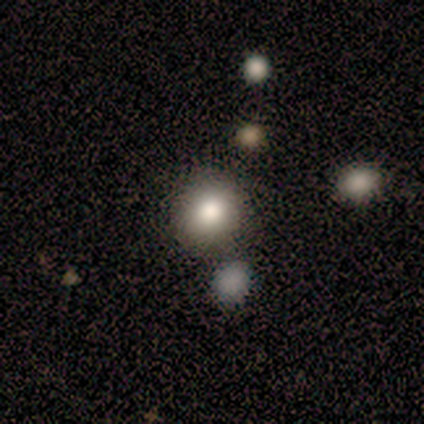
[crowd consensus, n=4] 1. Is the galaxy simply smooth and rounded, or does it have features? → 75% smooth, 25% star or artifact, 0% featured or disk.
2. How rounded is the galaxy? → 67% round, 33% in between, 0% cigar-shaped.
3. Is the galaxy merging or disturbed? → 100% none, 0% minor disturbance, 0% major disturbance, 0% merger.